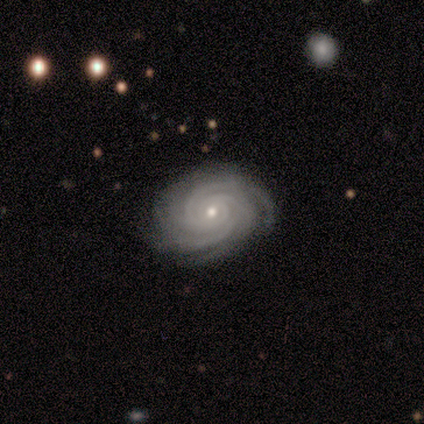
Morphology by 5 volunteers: This appears to be a featured or disk galaxy (100%) with no bar (80%), 3 (60%) tight (80%) spiral arms (100%) and a small central bulge (100%). Merging: none (100%).